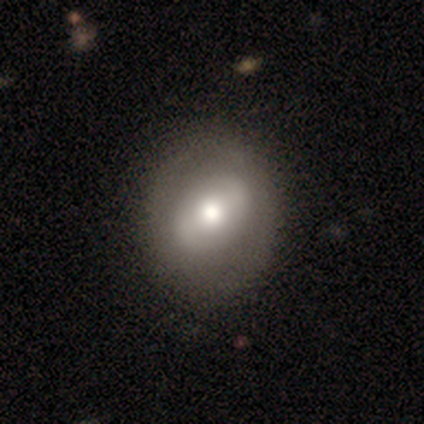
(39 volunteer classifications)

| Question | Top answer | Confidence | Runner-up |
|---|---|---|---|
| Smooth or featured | featured or disk | 59% | smooth (41%) |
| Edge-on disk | no | 91% | yes (9%) |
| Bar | no | 52% | strong (38%) |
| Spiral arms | no | 81% | yes (19%) |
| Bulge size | moderate | 52% | large (33%) |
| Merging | none | 77% | minor disturbance (5%) |